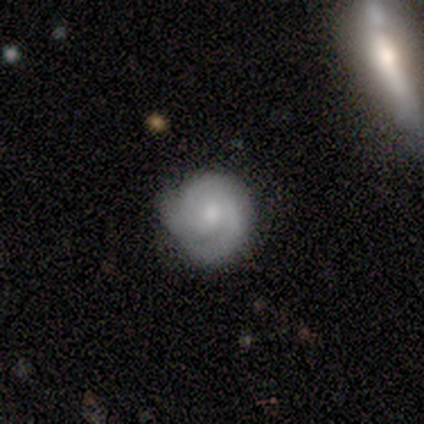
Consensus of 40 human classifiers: featured or disk 55%, smooth 40%, star or artifact 5%. Down the decision tree: edge-on disk — no (100%); bar — no (86%); spiral arms — yes (91%); spiral arm count — 3 (55%); spiral winding — tight (50%); bulge size — small (50%); merging — none (82%).